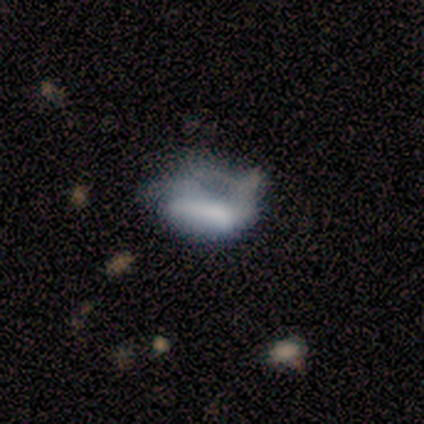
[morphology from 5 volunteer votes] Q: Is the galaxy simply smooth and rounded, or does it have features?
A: featured or disk — 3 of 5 (60%).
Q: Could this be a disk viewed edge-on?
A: no — 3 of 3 (100%).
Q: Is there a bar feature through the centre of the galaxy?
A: no — 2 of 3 (67%).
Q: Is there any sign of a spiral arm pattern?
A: no — 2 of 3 (67%).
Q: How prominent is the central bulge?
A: large — 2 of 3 (67%).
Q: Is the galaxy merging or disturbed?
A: minor disturbance — 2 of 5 (40%, tied with major disturbance).